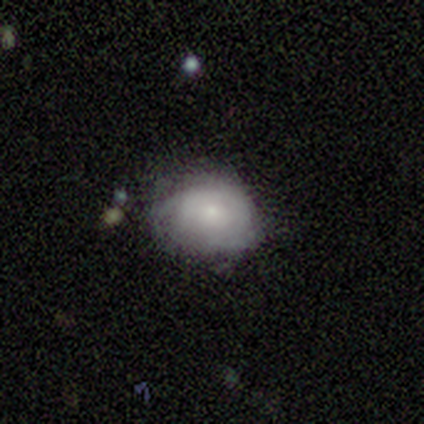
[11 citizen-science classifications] smooth-or-featured: smooth: 55% | featured or disk: 45% | star or artifact: 0%
  how-rounded: round: 50% (tied) | in between: 50% (tied) | cigar-shaped: 0%
  merging: none: 73% | major disturbance: 27% | minor disturbance: 0% | merger: 0%